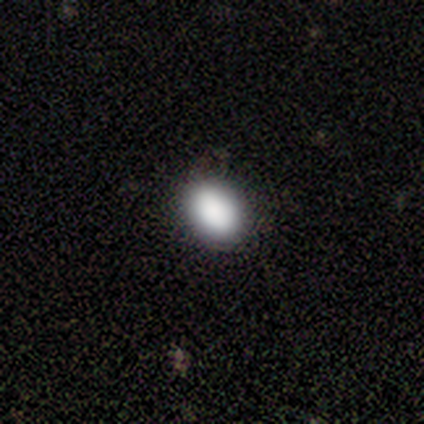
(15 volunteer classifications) A smooth galaxy with no disk features (93%) that is in between round and cigar-shaped (86%).

Vote fractions:
- Smooth or featured? smooth: 93% / star or artifact: 7% / featured or disk: 0%
- How rounded? in between: 86% / round: 14% / cigar-shaped: 0%
- Merging? none: 100% / minor disturbance: 0% / major disturbance: 0% / merger: 0%